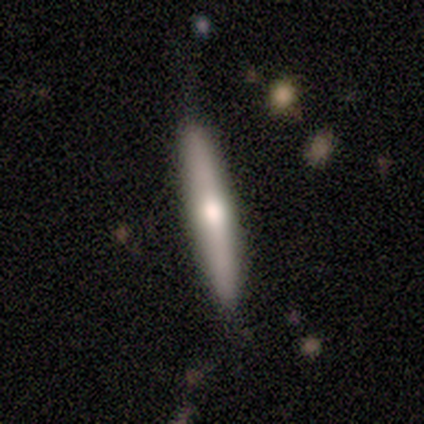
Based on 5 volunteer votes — Volunteers were most divided on "smooth or featured": featured or disk: 60%, smooth: 40%, star or artifact: 0%. More confident: edge-on disk — yes (100%); edge-on bulge — rounded (67%); merging — none (60%).